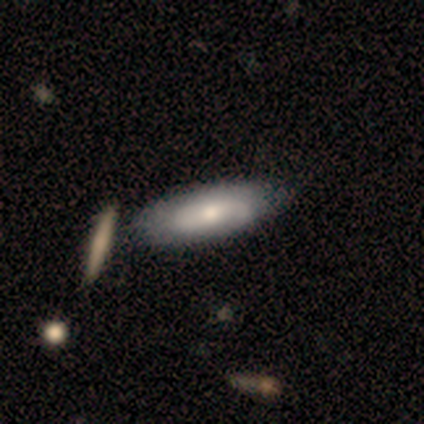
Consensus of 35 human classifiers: Smooth or featured?
  - smooth: 51% *
  - featured or disk: 43%
  - star or artifact: 6%
How rounded?
  - in between: 83% *
  - cigar-shaped: 17%
  - round: 0%
Merging?
  - none: 58% *
  - minor disturbance: 21%
  - merger: 9%
  - major disturbance: 0%